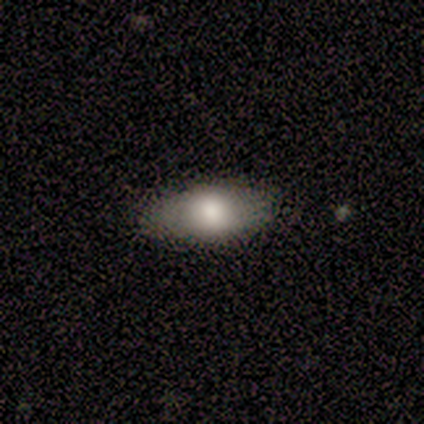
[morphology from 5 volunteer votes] Smooth or featured? smooth (80%)
How rounded? in between (75%)
Merging? none (60%)